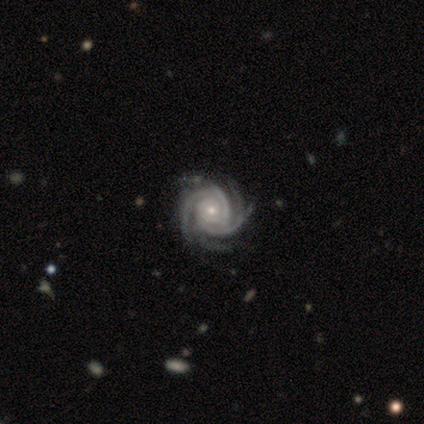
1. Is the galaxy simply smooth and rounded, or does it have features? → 100% featured or disk, 0% smooth, 0% star or artifact.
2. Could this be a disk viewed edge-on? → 100% no, 0% yes.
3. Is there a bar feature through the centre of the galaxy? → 100% no, 0% strong, 0% weak.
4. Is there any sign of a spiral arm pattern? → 100% yes, 0% no.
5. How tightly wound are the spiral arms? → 100% tight, 0% medium, 0% loose.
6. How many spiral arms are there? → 100% 4, 0% 1, 0% 2, 0% 3, 0% more than 4, 0% can't tell.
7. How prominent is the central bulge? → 100% small, 0% dominant, 0% large, 0% moderate, 0% none.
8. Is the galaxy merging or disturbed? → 100% none, 0% minor disturbance, 0% major disturbance, 0% merger.